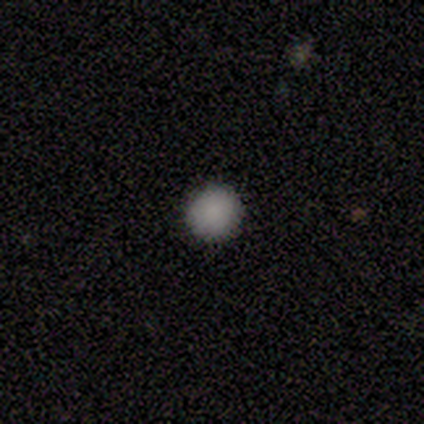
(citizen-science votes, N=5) smooth-or-featured: smooth: 100% | featured or disk: 0% | star or artifact: 0%
  how-rounded: round: 100% | in between: 0% | cigar-shaped: 0%
  merging: none: 100% | minor disturbance: 0% | major disturbance: 0% | merger: 0%